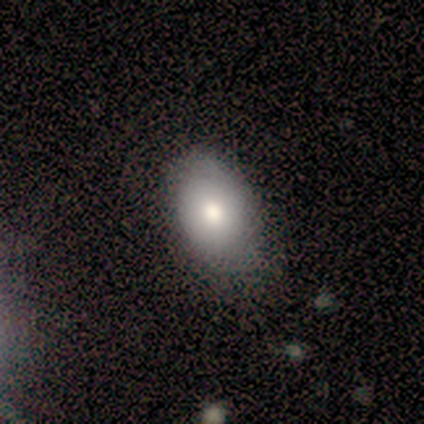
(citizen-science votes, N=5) This is clearly a smooth galaxy (80%). How rounded: likely in between (75%). Merging: marginally none (40%, tied with major disturbance).